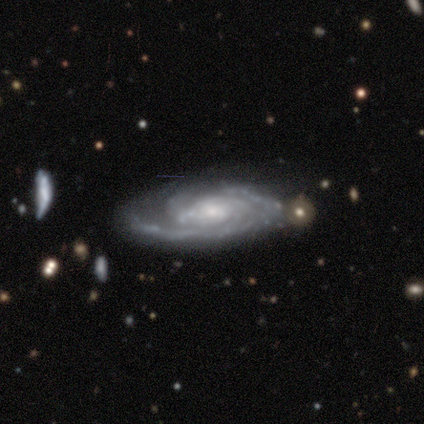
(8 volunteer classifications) Volunteers were most divided on "bulge size" (2-way tie): moderate: 43%, small: 43%, large: 14%, dominant: 0%, none: 0%; "merging" (2-way tie): none: 43%, minor disturbance: 43%, major disturbance: 14%, merger: 0%. Remaining: edge-on disk — no (100%); smooth or featured — featured or disk (88%); bar — no (71%); spiral arms — yes (71%); spiral winding — tight (60%); spiral arm count — 3 (40%).